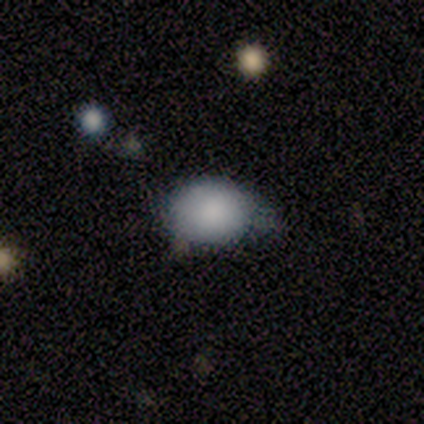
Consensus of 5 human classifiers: This appears to be a smooth galaxy with no disk features (100%) that is in between round and cigar-shaped (60%). Merging: minor disturbance (80%).